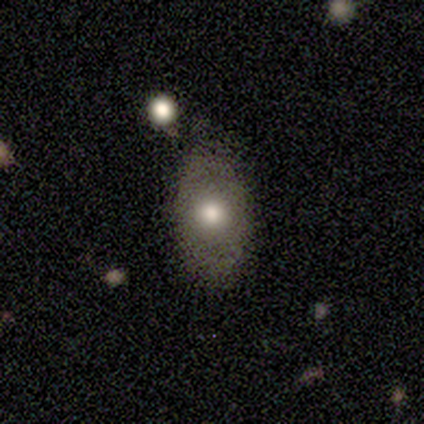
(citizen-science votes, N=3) Smooth or featured? smooth (100%)
How rounded? in between (100%)
Merging? none (100%)